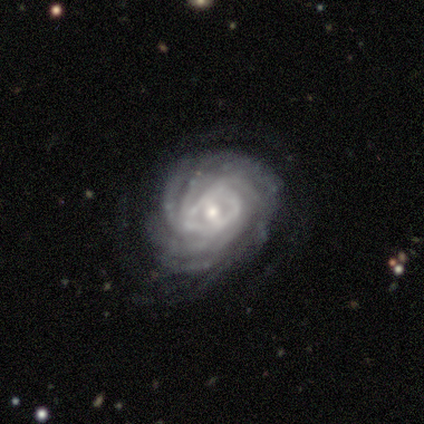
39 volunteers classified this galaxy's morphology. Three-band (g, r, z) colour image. It shows a featured or disk galaxy (90%) with no bar (59%), more than 4 (65%) tight (82%) spiral arms (100%) and a small central bulge (65%). Merging: none (78%).